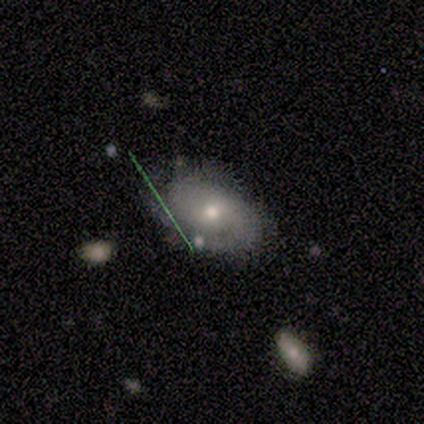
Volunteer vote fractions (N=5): smooth 60%, featured or disk 40%, star or artifact 0%. Down the decision tree: how rounded — in between (67%); merging — none (80%).